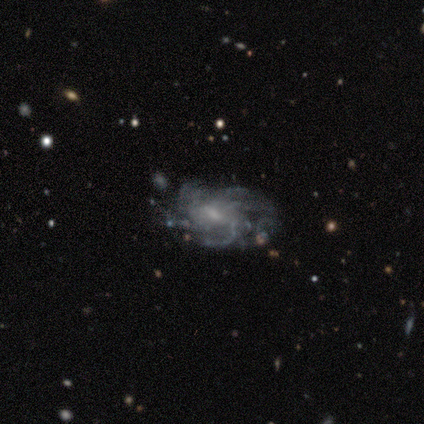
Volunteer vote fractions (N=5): A featured or disk galaxy (80%) with a weak bar (50%), more than 4 (100%) medium (75%) spiral arms (100%) and a moderate central bulge (75%). Merging: none (60%).